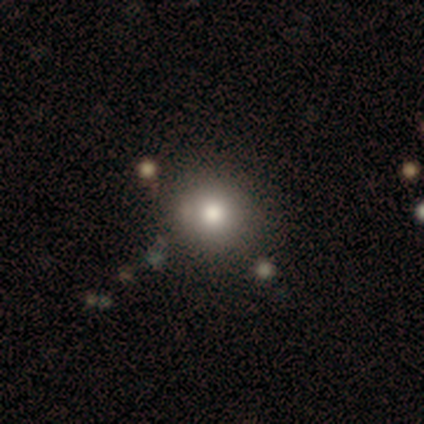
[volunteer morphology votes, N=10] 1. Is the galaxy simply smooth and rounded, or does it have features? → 80% smooth, 10% featured or disk, 10% star or artifact.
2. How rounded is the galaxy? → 75% round, 25% in between, 0% cigar-shaped.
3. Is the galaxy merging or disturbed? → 78% none, 22% major disturbance, 0% minor disturbance, 0% merger.